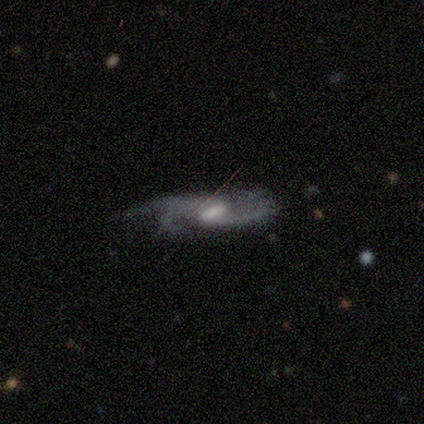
This is clearly a featured or disk galaxy (100%). It is clearly not viewed edge-on (100%). Bar: likely weak (60%). Spiral arm pattern: clearly yes (100%). Spiral arm count: marginally 2 (40%, tied with 3). Spiral winding: likely medium (60%). Central bulge: likely moderate (60%). Merging: clearly none (80%).